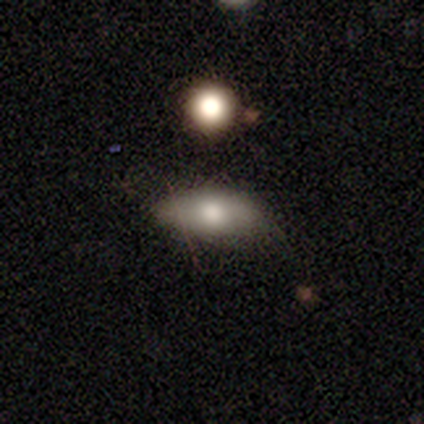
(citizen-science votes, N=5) This is clearly a smooth galaxy (80%). How rounded: likely in between (75%). Merging: clearly none (80%).